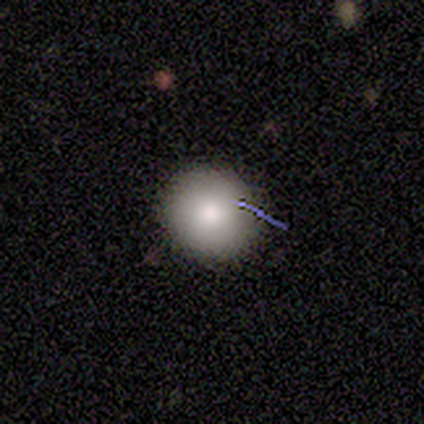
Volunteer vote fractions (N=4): Overall: smooth (50%, tied with star or artifact). How rounded: round (100%). Merging: none (100%).